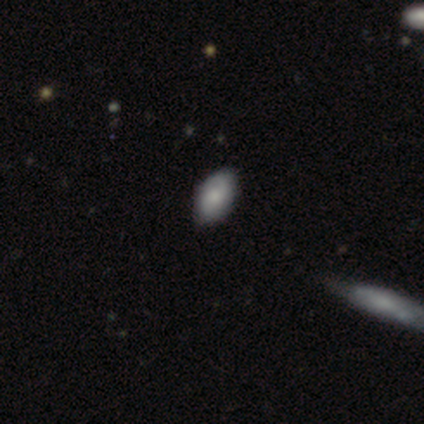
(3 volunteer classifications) Smooth or featured: smooth — 100%
How rounded: in between — 67% (cigar-shaped — 33%)
Merging: none — 67% (minor disturbance — 33%)